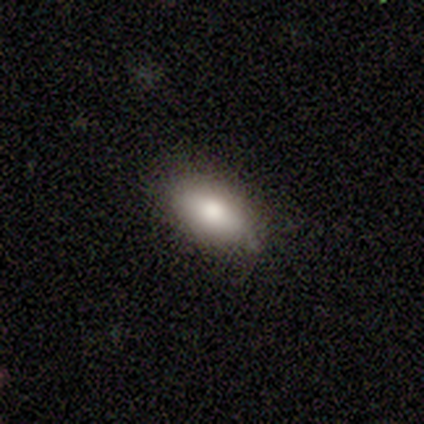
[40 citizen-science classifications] Morphology: type=smooth (88%); roundness=in between (91%); merging=none (81%).